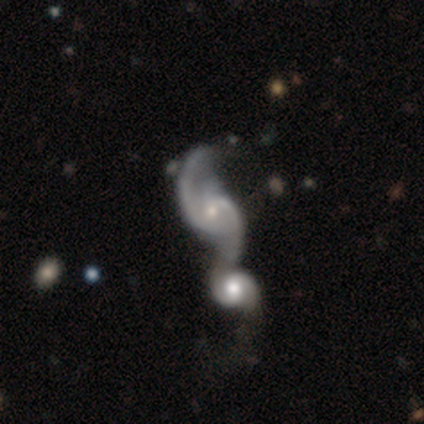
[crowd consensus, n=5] Overall: featured or disk (100%). Edge-on disk: no (80%). Bar: weak (100%). Spiral arms: yes (100%). Spiral arm count: 2 (100%). Spiral winding: loose (75%). Bulge size: moderate (50%, tied with small). Merging: none (40%, tied with merger).